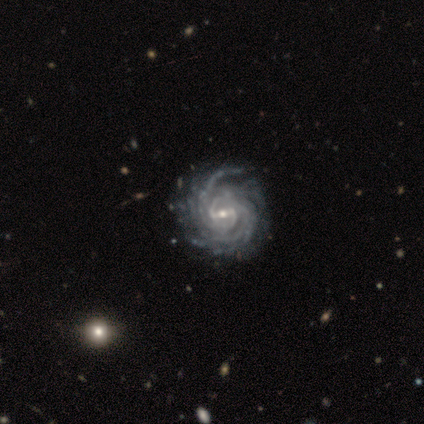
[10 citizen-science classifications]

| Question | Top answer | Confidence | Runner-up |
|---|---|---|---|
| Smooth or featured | featured or disk | 90% | star or artifact (10%) |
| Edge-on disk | no | 100% | — |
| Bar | weak | 67% | strong (22%) |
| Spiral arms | yes | 100% | — |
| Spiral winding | tight | 100% | — |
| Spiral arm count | can't tell | 44% | more than 4 (33%) |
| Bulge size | small | 78% | moderate (22%) |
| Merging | none | 56% | minor disturbance (44%) |